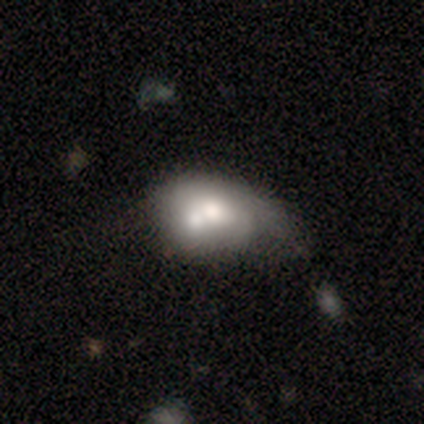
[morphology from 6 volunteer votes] Q: Smooth or featured?
A: featured or disk (50%); runner-up: smooth (33%)
Q: Edge-on disk?
A: no (100%)
Q: Bar?
A: no (67%); runner-up: strong (33%)
Q: Spiral arms?
A: yes (67%); runner-up: no (33%)
Q: Spiral winding?
A: tight (50%); tied with: medium (50%)
Q: Spiral arm count?
A: 4 (50%); tied with: can't tell (50%)
Q: Bulge size?
A: large (67%); runner-up: small (33%)
Q: Merging?
A: major disturbance (40%); tied with: merger (40%)